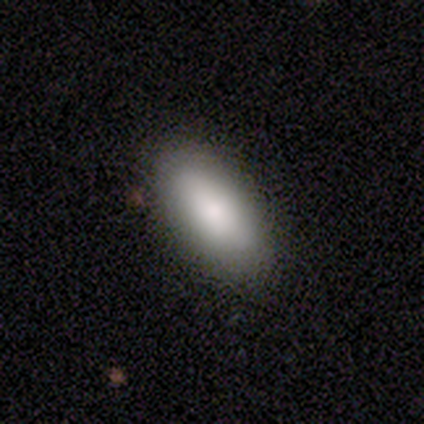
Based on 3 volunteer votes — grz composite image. It shows a smooth galaxy with no disk features (100%) that is in between round and cigar-shaped (100%). Merging: none (100%).